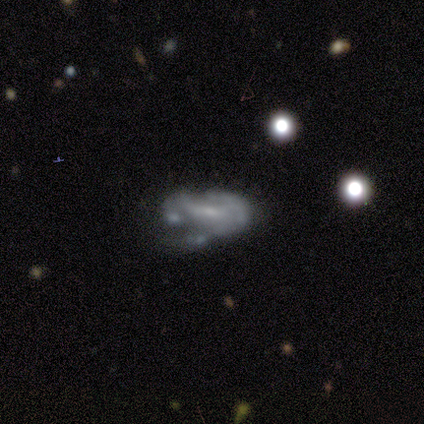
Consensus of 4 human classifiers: Smooth or featured?
  - featured or disk: 75% *
  - smooth: 25%
  - star or artifact: 0%
Edge-on disk?
  - no: 100% *
  - yes: 0%
Bar?
  - weak: 67% *
  - no: 33%
  - strong: 0%
Spiral arms?
  - yes: 67% *
  - no: 33%
Spiral winding?
  - medium: 50% * (tied)
  - loose: 50% * (tied)
  - tight: 0%
Spiral arm count?
  - 2: 100% *
  - 1: 0%
  - 3: 0%
  - 4: 0%
  - more than 4: 0%
  - can't tell: 0%
Bulge size?
  - moderate: 67% *
  - small: 33%
  - dominant: 0%
  - large: 0%
  - none: 0%
Merging?
  - merger: 50% *
  - minor disturbance: 25%
  - major disturbance: 25%
  - none: 0%